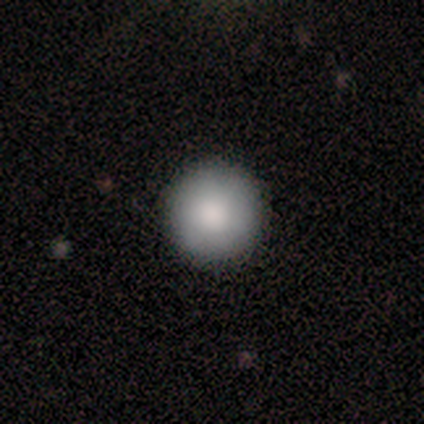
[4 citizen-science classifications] Overall: smooth (100%). How rounded: round (100%). Merging: none (100%).